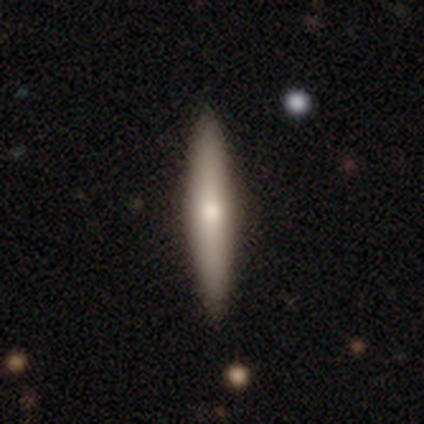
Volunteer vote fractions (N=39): This appears to be a featured or disk galaxy (54%) viewed edge-on (95%) with a rounded central bulge (75%). Merging: none (71%).